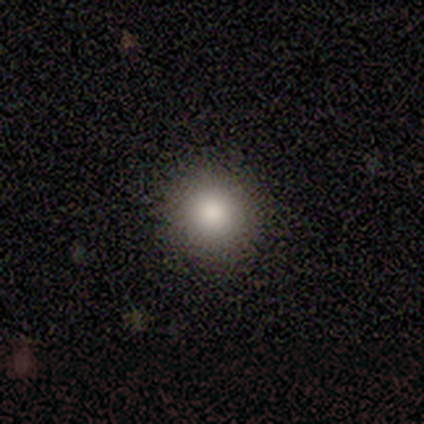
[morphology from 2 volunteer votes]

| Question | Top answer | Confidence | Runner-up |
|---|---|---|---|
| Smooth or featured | smooth | 50% | tied: star or artifact (50%) |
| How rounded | round | 100% | — |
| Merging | none | 100% | — |